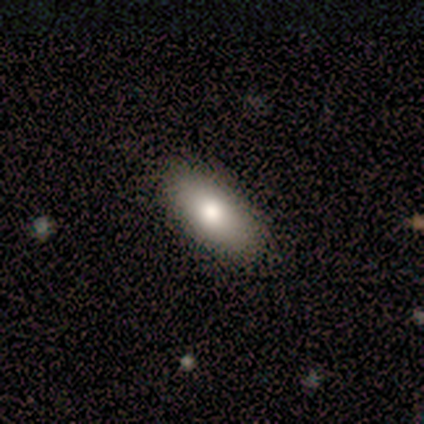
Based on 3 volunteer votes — Smooth or featured? smooth (100%)
How rounded? in between (67%)
Merging? none (100%)